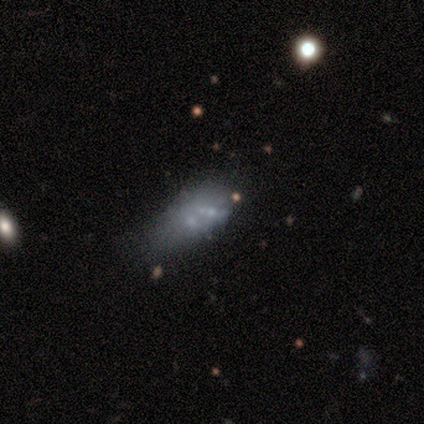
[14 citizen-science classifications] Q: Smooth or featured?
A: featured or disk (64%); runner-up: smooth (36%)
Q: Edge-on disk?
A: no (100%)
Q: Bar?
A: no (100%)
Q: Spiral arms?
A: no (100%)
Q: Bulge size?
A: none (78%); runner-up: small (22%)
Q: Merging?
A: minor disturbance (43%); runner-up: none (36%)